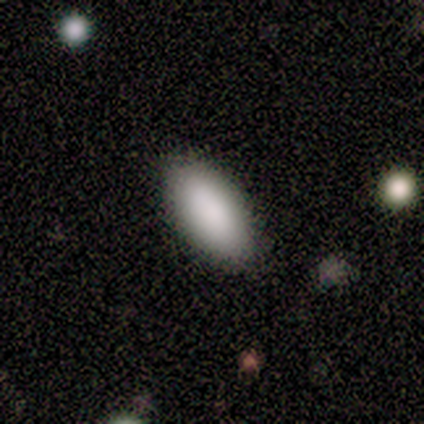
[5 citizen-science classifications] Smooth or featured? 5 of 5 (100%) said smooth. How rounded? 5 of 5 (100%) said in between. Merging? 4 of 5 (80%) said none.